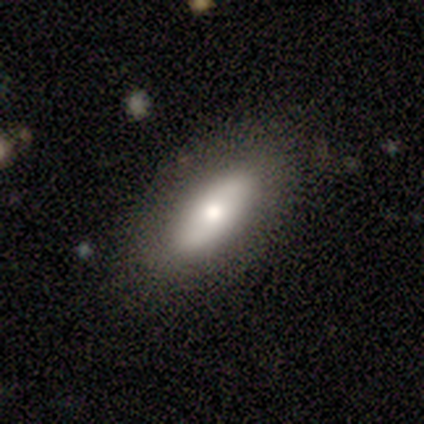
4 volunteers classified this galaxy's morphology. smooth_or_featured: smooth (p=1.00)
how_rounded: in between (p=0.50) [tied with: cigar-shaped p=0.50]
merging: none (p=1.00)